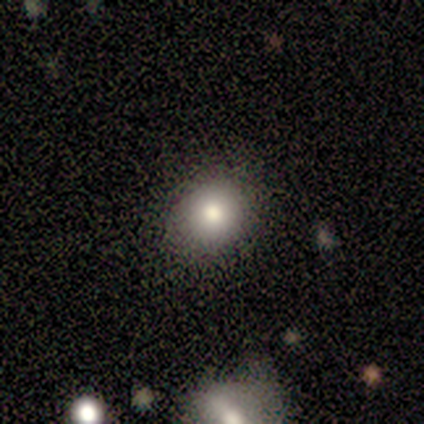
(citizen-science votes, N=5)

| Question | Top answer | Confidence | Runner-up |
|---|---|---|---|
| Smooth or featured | smooth | 60% | featured or disk (20%) |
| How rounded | round | 67% | in between (33%) |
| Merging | none | 75% | minor disturbance (25%) |